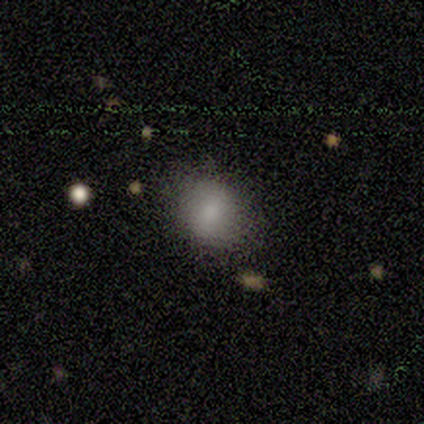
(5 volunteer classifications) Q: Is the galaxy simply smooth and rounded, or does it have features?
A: smooth — 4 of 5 (80%).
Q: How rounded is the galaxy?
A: in between — 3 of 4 (75%).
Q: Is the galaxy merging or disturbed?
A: none — 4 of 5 (80%).